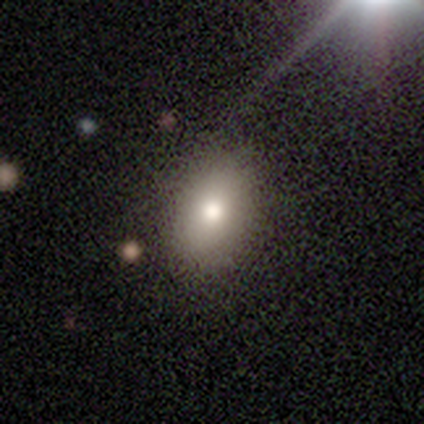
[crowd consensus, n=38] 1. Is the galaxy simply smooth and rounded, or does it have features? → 82% smooth, 13% star or artifact, 5% featured or disk.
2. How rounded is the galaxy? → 74% in between, 26% round, 0% cigar-shaped.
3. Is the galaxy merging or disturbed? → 91% none, 6% minor disturbance, 3% major disturbance, 0% merger.